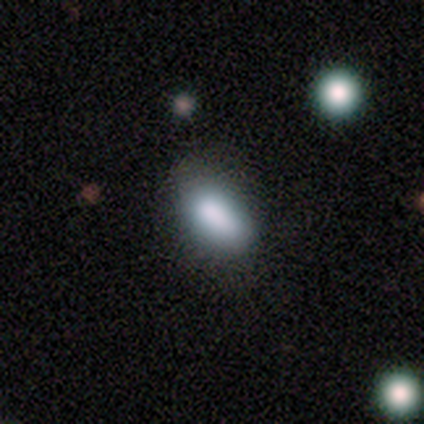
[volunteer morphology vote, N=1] Consensus on every question: smooth or featured — featured or disk (100%); edge-on disk — no (100%); bar — no (100%); spiral arms — no (100%); bulge size — dominant (100%); merging — minor disturbance (100%).